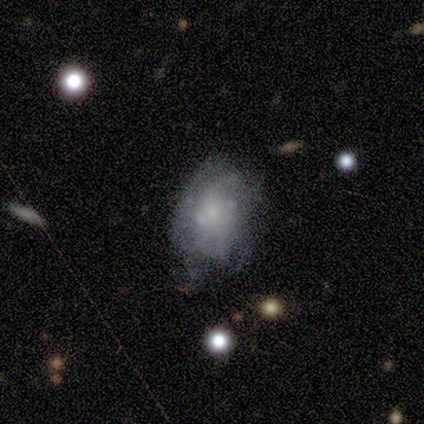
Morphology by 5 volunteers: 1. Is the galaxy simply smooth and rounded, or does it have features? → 80% featured or disk, 20% smooth, 0% star or artifact.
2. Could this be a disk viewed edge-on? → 75% no, 25% yes.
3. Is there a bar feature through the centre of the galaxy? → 67% no, 33% weak, 0% strong.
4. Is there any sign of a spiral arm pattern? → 67% yes, 33% no.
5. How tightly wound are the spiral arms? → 50% tight (tied), 50% medium (tied), 0% loose.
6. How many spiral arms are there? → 50% 2 (tied), 50% can't tell (tied), 0% 1, 0% 3, 0% 4, 0% more than 4.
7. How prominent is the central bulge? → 67% small, 33% none, 0% dominant, 0% large, 0% moderate.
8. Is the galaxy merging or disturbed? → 80% none, 20% minor disturbance, 0% major disturbance, 0% merger.